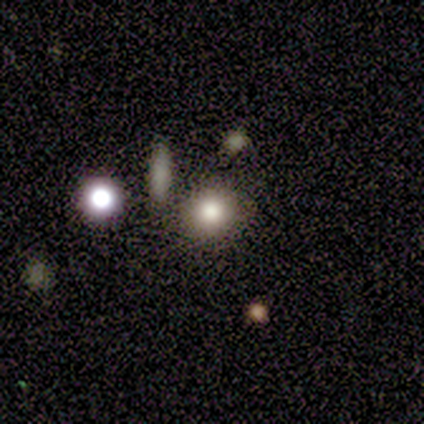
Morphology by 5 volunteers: Smooth or featured: smooth — 80% (star or artifact — 20%)
How rounded: round — 50% (tied with in between — 50%)
Merging: none — 75% (minor disturbance — 25%)